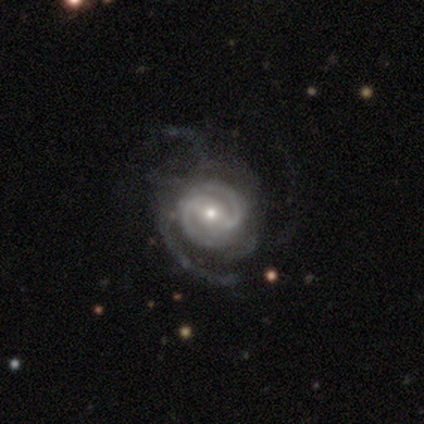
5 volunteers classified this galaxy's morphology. Q: Smooth or featured?
A: featured or disk (100%)
Q: Edge-on disk?
A: no (80%); runner-up: yes (20%)
Q: Bar?
A: weak (75%); runner-up: strong (25%)
Q: Spiral arms?
A: yes (100%)
Q: Spiral winding?
A: medium (75%); runner-up: tight (25%)
Q: Spiral arm count?
A: 2 (50%); runner-up: 1 (25%)
Q: Bulge size?
A: small (75%); runner-up: moderate (25%)
Q: Merging?
A: none (60%); runner-up: major disturbance (40%)